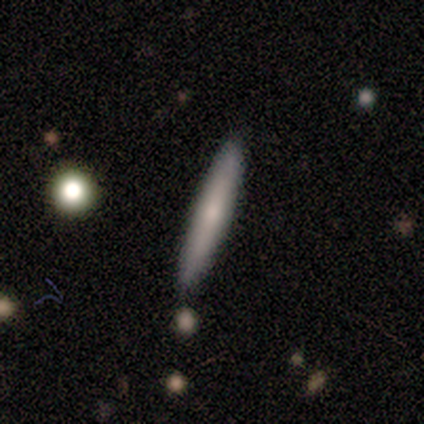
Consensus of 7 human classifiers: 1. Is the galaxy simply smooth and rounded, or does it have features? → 71% smooth, 29% featured or disk, 0% star or artifact.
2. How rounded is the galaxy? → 100% cigar-shaped, 0% round, 0% in between.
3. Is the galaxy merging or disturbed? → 100% none, 0% minor disturbance, 0% major disturbance, 0% merger.